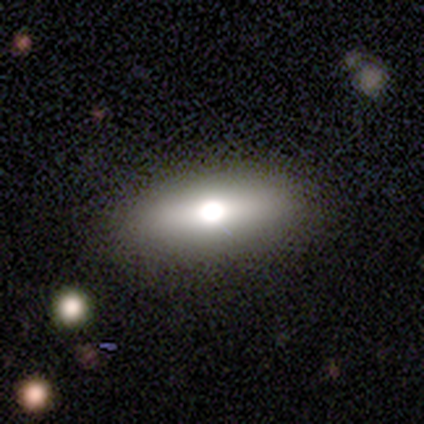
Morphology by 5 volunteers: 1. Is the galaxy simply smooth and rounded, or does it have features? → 60% smooth, 40% featured or disk, 0% star or artifact.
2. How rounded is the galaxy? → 67% in between, 33% cigar-shaped, 0% round.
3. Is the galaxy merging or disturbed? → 80% none, 20% minor disturbance, 0% major disturbance, 0% merger.